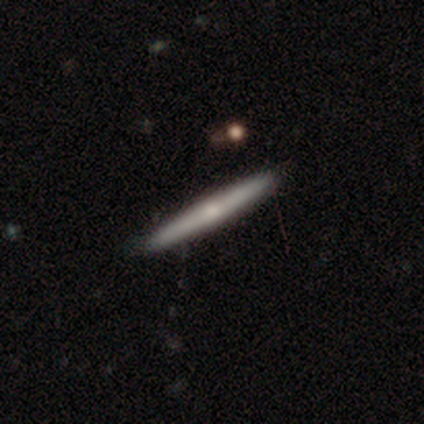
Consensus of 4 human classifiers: This appears to be a featured or disk galaxy (75%) viewed edge-on (100%) with a rounded central bulge (100%). Merging: none (100%).